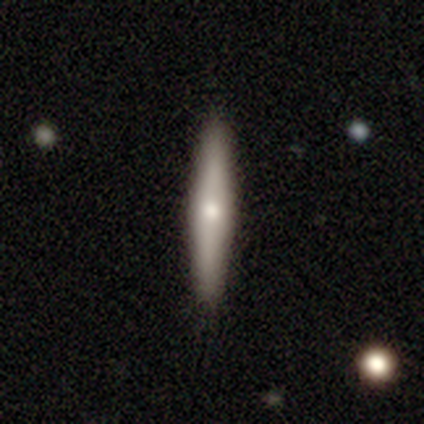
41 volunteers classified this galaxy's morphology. Smooth or featured? smooth (56%)
How rounded? cigar-shaped (100%)
Merging? none (93%)